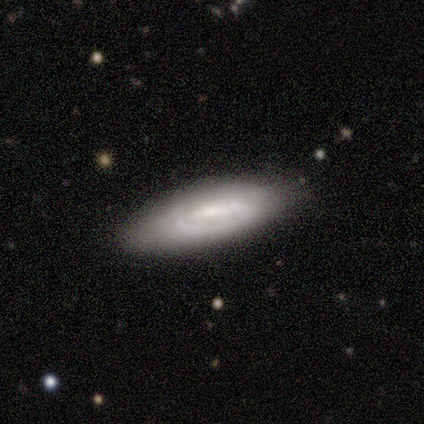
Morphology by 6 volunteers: smooth-or-featured: smooth: 50% (tied) | featured or disk: 50% (tied) | star or artifact: 0%
  how-rounded: in between: 67% | cigar-shaped: 33% | round: 0%
  merging: none: 50% | minor disturbance: 33% | major disturbance: 17% | merger: 0%